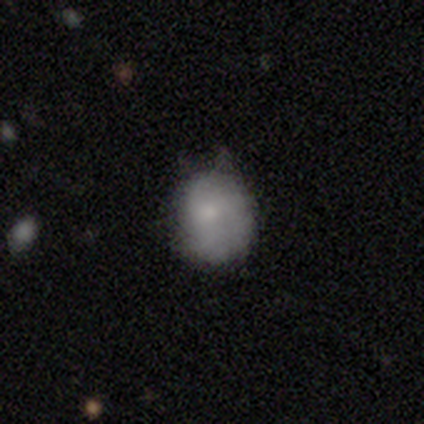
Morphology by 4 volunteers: Smooth or featured: smooth — 75% (star or artifact — 25%)
How rounded: round — 67% (in between — 33%)
Merging: none — 67% (major disturbance — 33%)